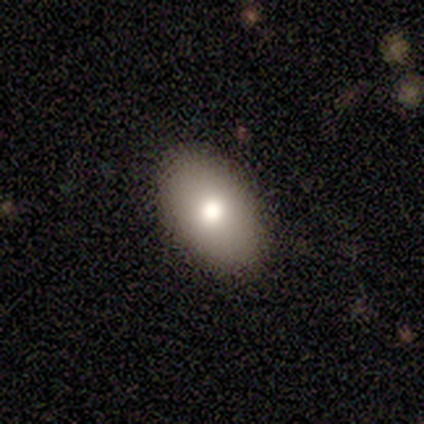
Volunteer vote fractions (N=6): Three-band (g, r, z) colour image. It shows a smooth galaxy with no disk features (100%) that is in between round and cigar-shaped (100%). Merging: none (83%).